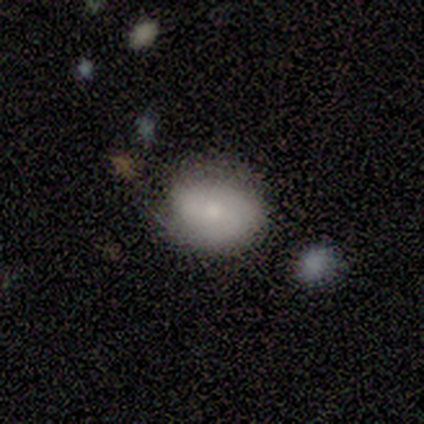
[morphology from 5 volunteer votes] type=smooth (60%); roundness=in between (67%); merging=none (80%).